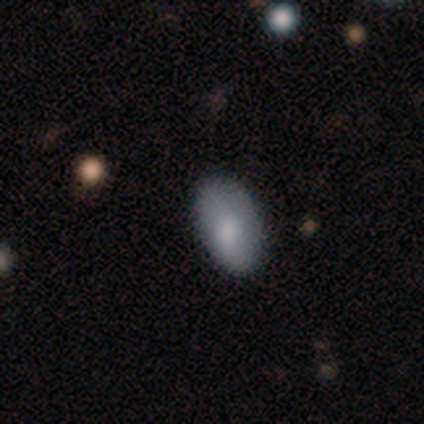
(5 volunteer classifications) This is clearly a smooth galaxy (80%). How rounded: clearly in between (100%). Merging: likely none (75%).